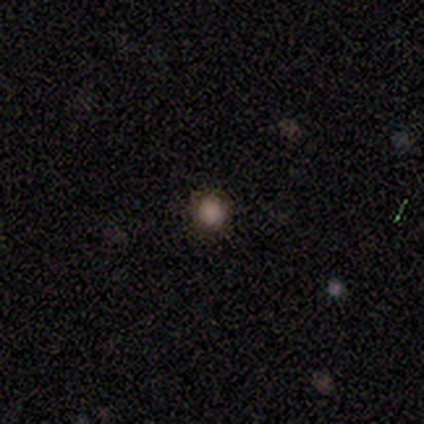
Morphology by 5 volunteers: smooth-or-featured: smooth: 80% | star or artifact: 20% | featured or disk: 0%
  how-rounded: round: 100% | in between: 0% | cigar-shaped: 0%
  merging: none: 100% | minor disturbance: 0% | major disturbance: 0% | merger: 0%